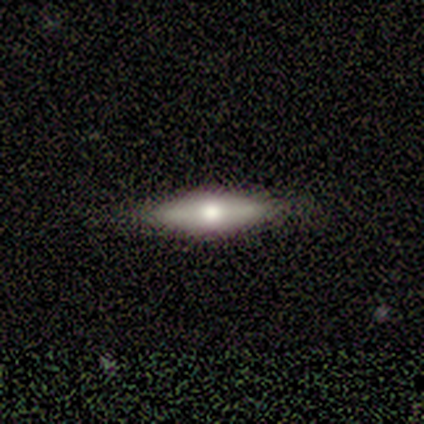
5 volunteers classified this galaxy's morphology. type=featured or disk (60%); edge-on=yes (100%); edge-on bulge=rounded (100%); merging=none (80%).